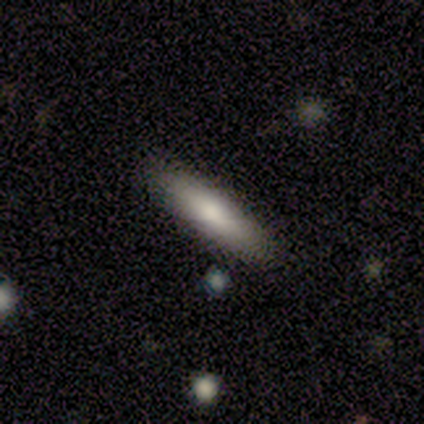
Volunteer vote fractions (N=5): Volunteers were most divided on "how rounded": cigar-shaped: 60%, in between: 40%, round: 0%. More confident: smooth or featured — smooth (100%); merging — none (80%).